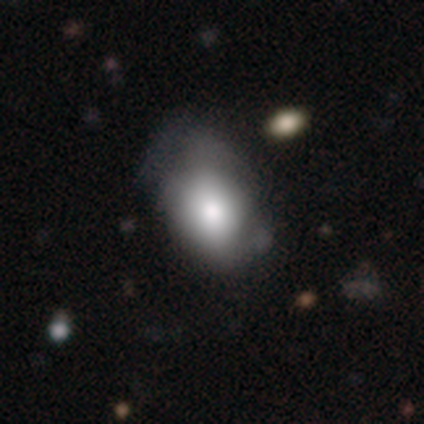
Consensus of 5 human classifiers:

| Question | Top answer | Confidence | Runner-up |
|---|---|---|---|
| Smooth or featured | smooth | 80% | featured or disk (20%) |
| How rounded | in between | 75% | round (25%) |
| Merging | minor disturbance | 40% | tied: major disturbance (40%) |